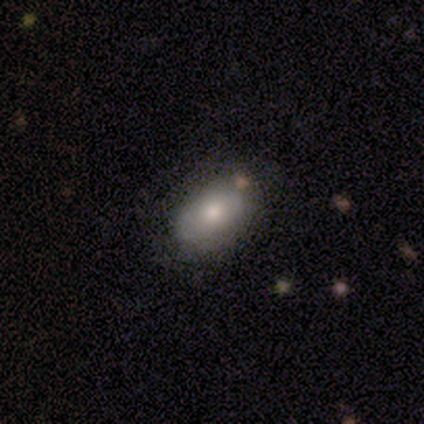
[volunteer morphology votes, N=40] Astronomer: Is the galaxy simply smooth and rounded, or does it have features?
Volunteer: smooth — 78%.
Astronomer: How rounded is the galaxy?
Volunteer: in between — 100%.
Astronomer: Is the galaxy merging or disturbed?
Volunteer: none — 77%.